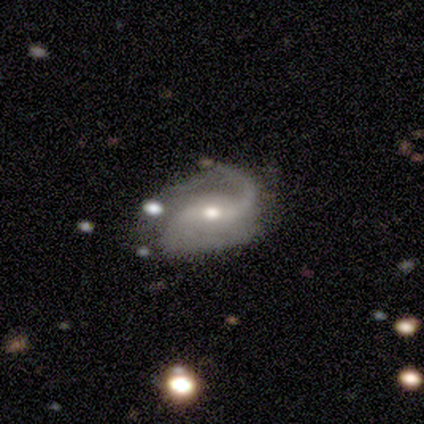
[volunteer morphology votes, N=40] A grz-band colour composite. It shows a featured or disk galaxy (90%) with a weak bar (44%), 2 (79%) loose (56%) spiral arms (94%) and a moderate central bulge (64%). Merging: none (59%).